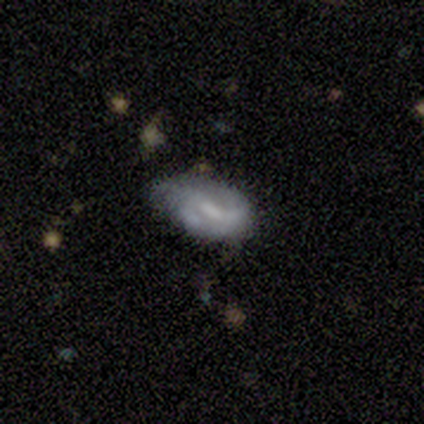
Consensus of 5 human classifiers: This appears to be a featured or disk galaxy (80%) with a strong bar (50%), 1 (33%, tied with 2 and can't tell) tight (33%, tied with medium and loose) spiral arms (75%) and a moderate central bulge (50%). Merging: minor disturbance (60%).